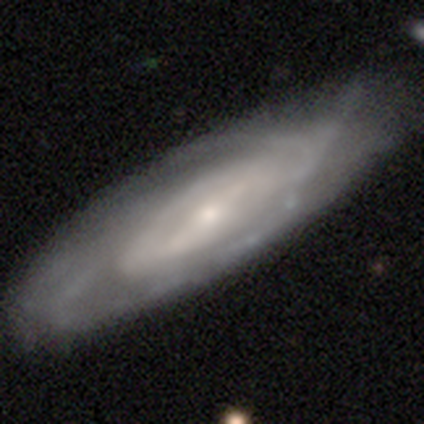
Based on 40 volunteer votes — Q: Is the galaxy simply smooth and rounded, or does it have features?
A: featured or disk — 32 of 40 (80%).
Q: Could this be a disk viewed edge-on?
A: no — 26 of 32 (81%).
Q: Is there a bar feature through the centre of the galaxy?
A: strong — 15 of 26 (58%).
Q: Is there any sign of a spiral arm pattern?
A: yes — 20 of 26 (77%).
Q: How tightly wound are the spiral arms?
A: tight — 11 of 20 (55%).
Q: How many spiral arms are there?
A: can't tell — 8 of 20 (40%).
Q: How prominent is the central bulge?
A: small — 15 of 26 (58%).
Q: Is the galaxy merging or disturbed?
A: none — 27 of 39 (69%).